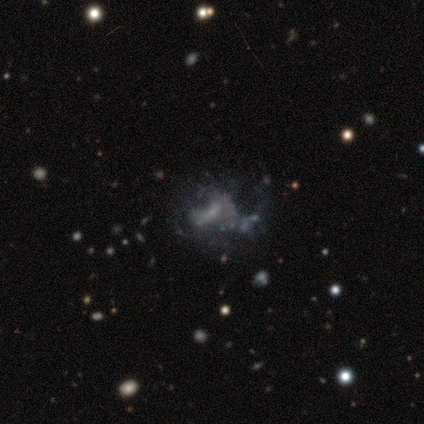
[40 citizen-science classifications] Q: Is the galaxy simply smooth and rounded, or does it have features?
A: featured or disk — 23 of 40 (57%).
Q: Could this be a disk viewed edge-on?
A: no — 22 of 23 (96%).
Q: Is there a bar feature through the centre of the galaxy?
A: no — 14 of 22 (64%).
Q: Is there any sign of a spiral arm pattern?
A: no — 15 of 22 (68%).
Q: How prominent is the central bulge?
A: none — 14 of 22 (64%).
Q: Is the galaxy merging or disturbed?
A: none — 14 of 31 (45%).